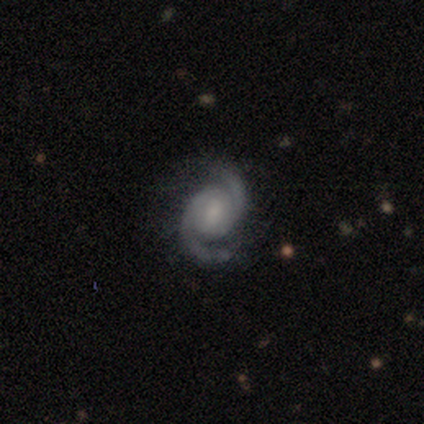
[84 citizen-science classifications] Smooth or featured?
  - featured or disk: 93% *
  - star or artifact: 5%
  - smooth: 2%
Edge-on disk?
  - no: 100% *
  - yes: 0%
Bar?
  - no: 50% *
  - weak: 40%
  - strong: 10%
Spiral arms?
  - yes: 99% *
  - no: 1%
Spiral winding?
  - tight: 49% *
  - medium: 42%
  - loose: 9%
Spiral arm count?
  - 2: 99% *
  - 1: 1%
  - 3: 0%
  - 4: 0%
  - more than 4: 0%
  - can't tell: 0%
Bulge size?
  - small: 42% *
  - moderate: 40%
  - none: 10%
  - large: 6%
  - dominant: 1%
Merging?
  - none: 81% *
  - minor disturbance: 15%
  - major disturbance: 4%
  - merger: 0%